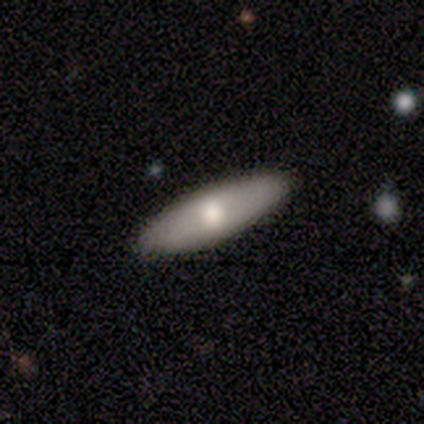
Overall: smooth (80%). How rounded: in between (100%). Merging: none (75%).